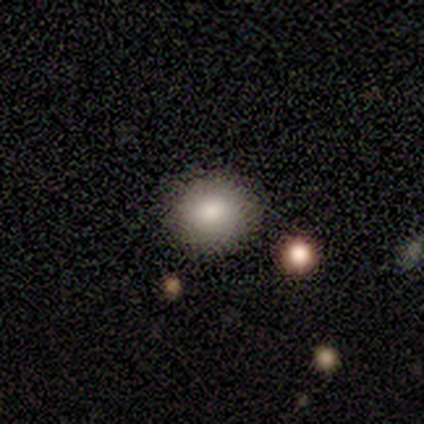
Smooth or featured?
  - smooth: 75% *
  - star or artifact: 25%
  - featured or disk: 0%
How rounded?
  - round: 100% *
  - in between: 0%
  - cigar-shaped: 0%
Merging?
  - none: 100% *
  - minor disturbance: 0%
  - major disturbance: 0%
  - merger: 0%